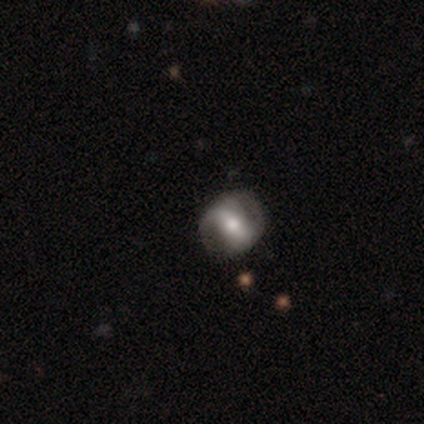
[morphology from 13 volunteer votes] Volunteers were most divided on "spiral winding": medium: 56%, tight: 33%, loose: 11%. More confident: edge-on disk — no (100%); spiral arms — yes (90%); merging — none (85%); smooth or featured — featured or disk (77%); spiral arm count — 2 (67%); bar — strong (60%); bulge size — moderate (60%).